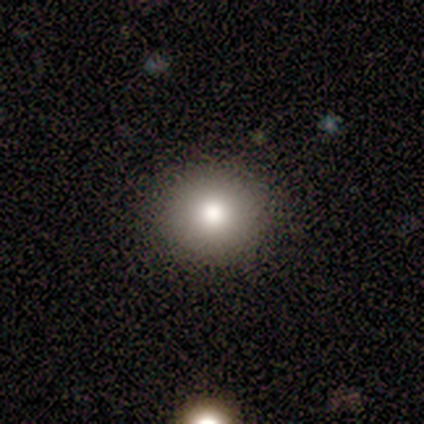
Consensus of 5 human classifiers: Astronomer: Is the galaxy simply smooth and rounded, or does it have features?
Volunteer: smooth — 100%.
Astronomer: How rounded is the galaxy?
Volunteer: round — 100%.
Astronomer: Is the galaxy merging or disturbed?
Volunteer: none — 100%.